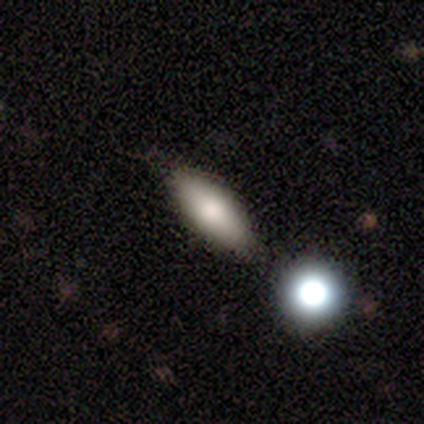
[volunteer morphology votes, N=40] This is likely a smooth galaxy (78%). How rounded: clearly in between (81%). Merging: possibly none (47%).